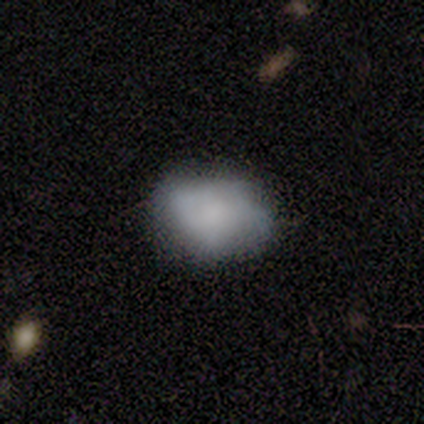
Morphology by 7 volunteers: smooth-or-featured: smooth: 71% | featured or disk: 29% | star or artifact: 0%
  how-rounded: in between: 60% | round: 40% | cigar-shaped: 0%
  merging: minor disturbance: 71% | none: 29% | major disturbance: 0% | merger: 0%